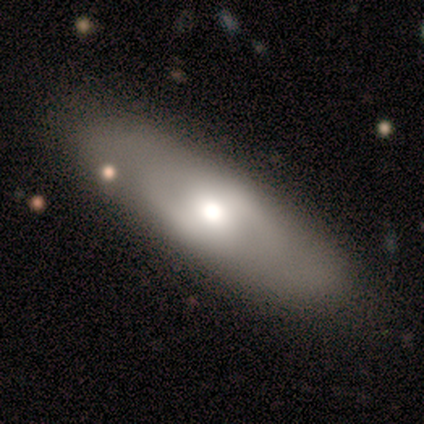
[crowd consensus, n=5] smooth_or_featured: smooth (p=0.80) [alt: featured or disk p=0.20]
how_rounded: in between (p=0.75) [alt: cigar-shaped p=0.25]
merging: none (p=0.80) [alt: minor disturbance p=0.20]